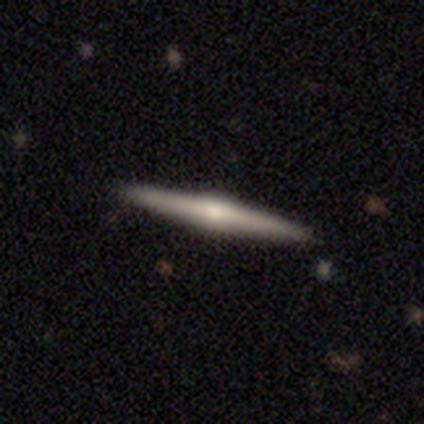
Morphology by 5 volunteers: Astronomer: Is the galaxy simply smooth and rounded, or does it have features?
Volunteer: featured or disk — 60% (runner-up: smooth, 40%).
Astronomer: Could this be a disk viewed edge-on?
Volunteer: yes — 100%.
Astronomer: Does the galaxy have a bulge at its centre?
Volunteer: rounded — 100%.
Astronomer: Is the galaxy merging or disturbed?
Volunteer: none — 100%.